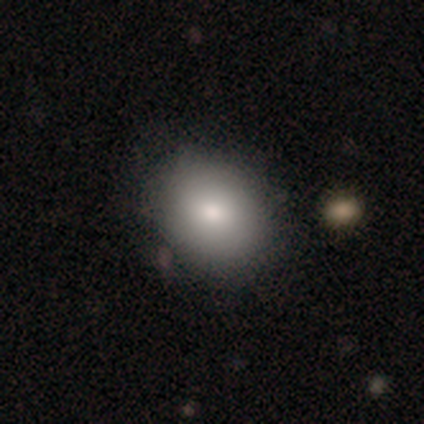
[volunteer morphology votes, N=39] A smooth galaxy with no disk features (79%) that is in between round and cigar-shaped (65%).

Vote fractions:
- Smooth or featured? smooth: 79% / featured or disk: 10% / star or artifact: 10%
- How rounded? in between: 65% / round: 35% / cigar-shaped: 0%
- Merging? none: 71% / merger: 9% / minor disturbance: 3% / major disturbance: 0%